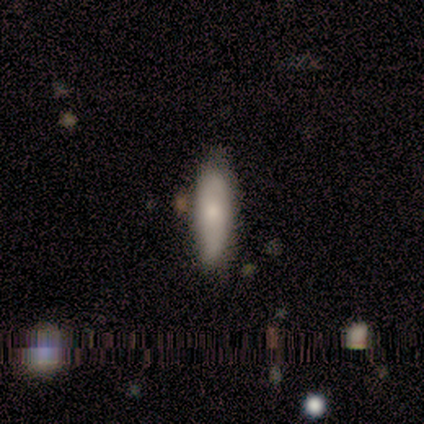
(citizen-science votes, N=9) Smooth or featured? smooth (78%)
How rounded? cigar-shaped (57%)
Merging? none (89%)